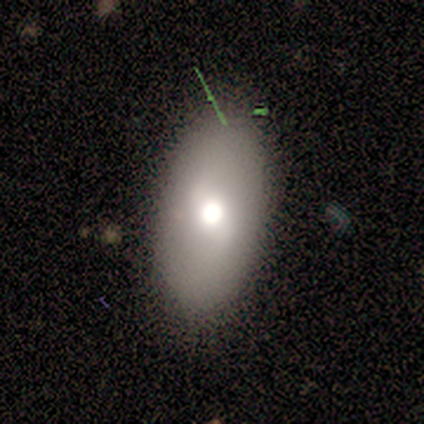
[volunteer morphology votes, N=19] Smooth or featured: smooth — 53% (featured or disk — 42%)
How rounded: in between — 90% (round — 10%)
Merging: none — 89% (minor disturbance — 11%)